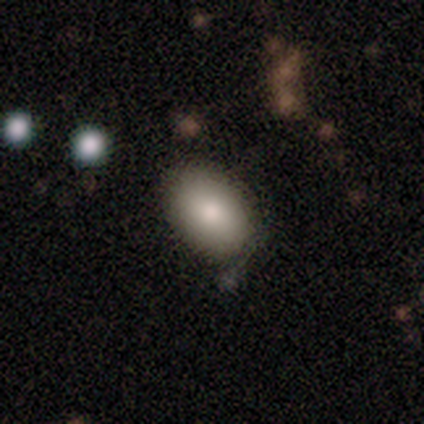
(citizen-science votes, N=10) A smooth galaxy with no disk features (80%) that is in between round and cigar-shaped (100%). Merging: none (62%).